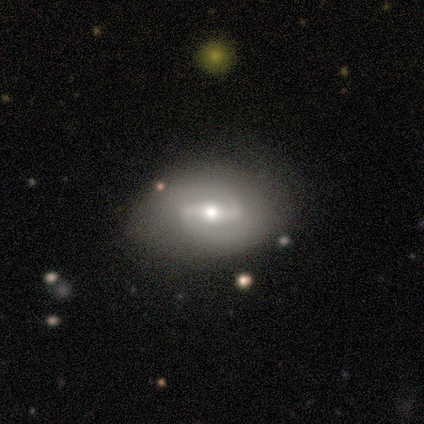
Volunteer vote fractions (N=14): smooth_or_featured: featured or disk (p=0.93) [alt: smooth p=0.07]
disk_edge_on: no (p=0.92) [alt: yes p=0.08]
bar: strong (p=0.67) [alt: weak p=0.33]
has_spiral_arms: yes (p=1.00)
spiral_winding: medium (p=0.67) [alt: tight p=0.25]
spiral_arm_count: 2 (p=1.00)
bulge_size: moderate (p=0.50) [alt: small p=0.42]
merging: none (p=0.64) [alt: minor disturbance p=0.21]